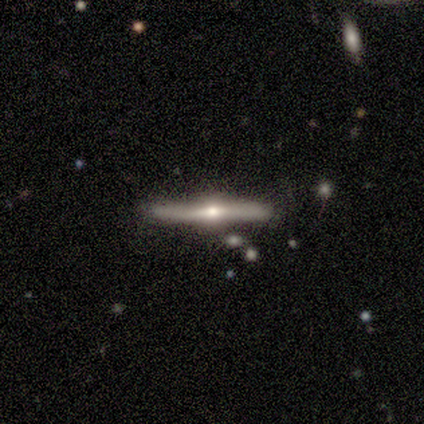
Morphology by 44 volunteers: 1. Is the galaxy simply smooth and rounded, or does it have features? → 93% featured or disk, 5% smooth, 2% star or artifact.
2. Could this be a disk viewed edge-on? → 98% yes, 2% no.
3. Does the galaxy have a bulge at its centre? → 92% rounded, 5% boxy, 2% none.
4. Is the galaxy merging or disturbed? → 79% none, 21% minor disturbance, 0% major disturbance, 0% merger.